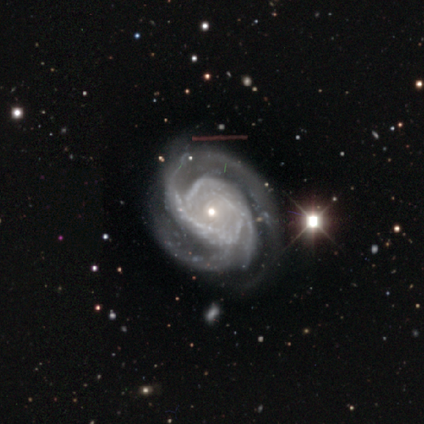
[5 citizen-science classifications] Morphology: type=featured or disk (100%); edge-on=no (100%); bar=no (60%); spiral arms=yes (100%); winding=tight (60%); arm count=3 (60%); bulge=small (80%); merging=none (40%, tied with minor disturbance).